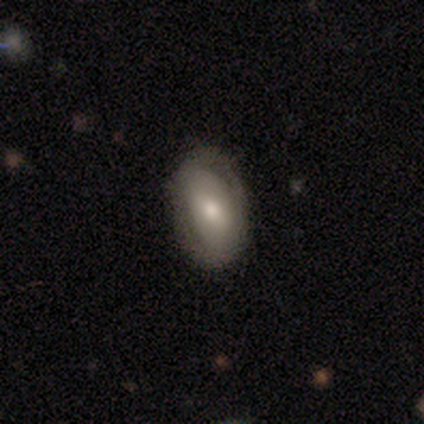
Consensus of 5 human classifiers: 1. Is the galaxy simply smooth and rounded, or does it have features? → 60% featured or disk, 40% smooth, 0% star or artifact.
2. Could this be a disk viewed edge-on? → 67% no, 33% yes.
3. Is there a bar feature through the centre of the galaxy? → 100% weak, 0% strong, 0% no.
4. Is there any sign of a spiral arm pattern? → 100% no, 0% yes.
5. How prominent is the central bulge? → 100% moderate, 0% dominant, 0% large, 0% small, 0% none.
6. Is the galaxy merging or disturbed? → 80% none, 20% minor disturbance, 0% major disturbance, 0% merger.